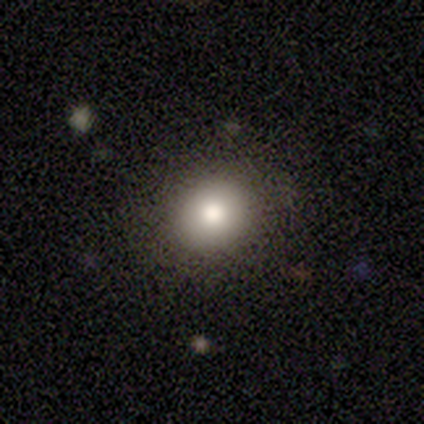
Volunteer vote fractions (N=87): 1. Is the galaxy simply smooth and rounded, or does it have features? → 72% smooth, 20% star or artifact, 8% featured or disk.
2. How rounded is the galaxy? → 67% round, 33% in between, 0% cigar-shaped.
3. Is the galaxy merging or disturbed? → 89% none, 7% minor disturbance, 3% major disturbance, 1% merger.